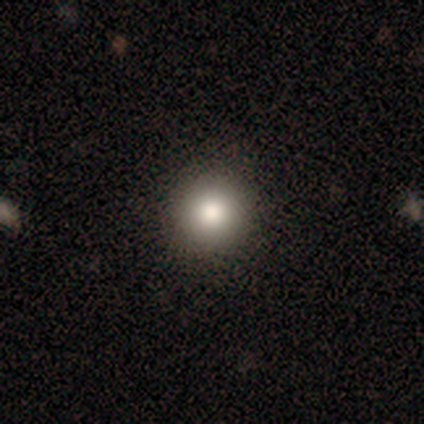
Morphology: type=smooth (80%); roundness=round (100%); merging=none (100%).